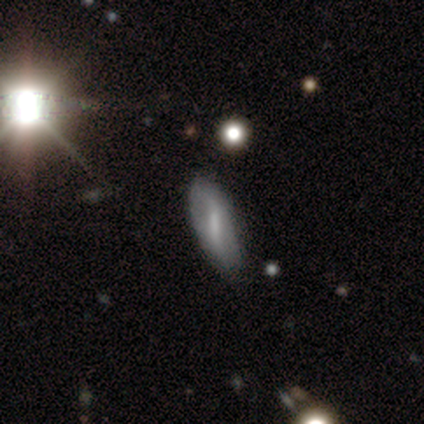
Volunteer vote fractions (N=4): smooth-or-featured: featured or disk: 50% | smooth: 25% | star or artifact: 25%
  disk-edge-on: yes: 50% (tied) | no: 50% (tied)
    edge-on-bulge: boxy: 100% | none: 0% | rounded: 0%
  merging: none: 67% | minor disturbance: 33% | major disturbance: 0% | merger: 0%